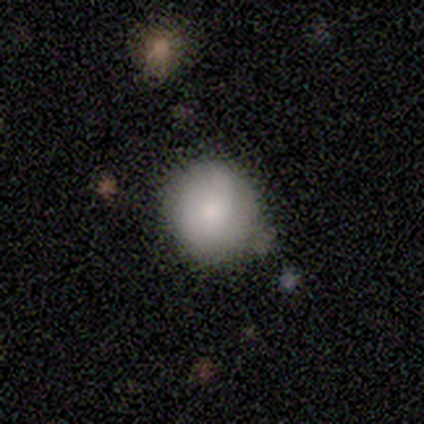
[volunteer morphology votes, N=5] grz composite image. It shows a smooth galaxy with no disk features (80%) that is round (100%). Merging: none (80%).